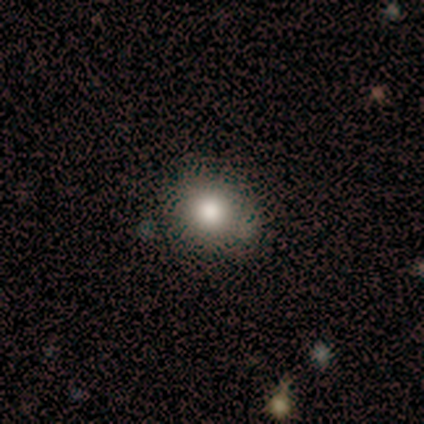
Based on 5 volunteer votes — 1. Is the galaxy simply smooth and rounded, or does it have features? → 100% smooth, 0% featured or disk, 0% star or artifact.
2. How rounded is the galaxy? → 80% round, 20% cigar-shaped, 0% in between.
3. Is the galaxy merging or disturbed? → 80% none, 20% minor disturbance, 0% major disturbance, 0% merger.